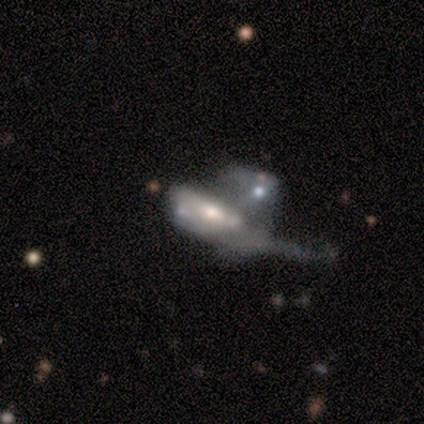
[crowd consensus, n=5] Smooth or featured? 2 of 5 (40%, tied with featured or disk) said smooth. How rounded? 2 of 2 (100%) said in between. Merging? 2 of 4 (50%, tied with merger) said major disturbance.